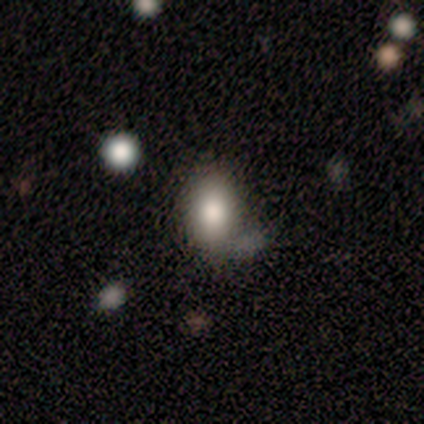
Smooth or featured? smooth (50%)
How rounded? in between (67%)
Merging? minor disturbance (60%)